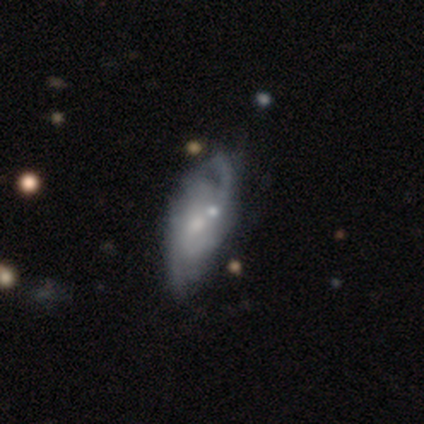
featured or disk 80%, star or artifact 20%, smooth 0%. Down the decision tree: edge-on disk — no (100%); bar — no (100%); spiral arms — yes (100%); spiral arm count — 4 (50%); spiral winding — tight (75%); bulge size — moderate (50%, tied with small); merging — none (75%).